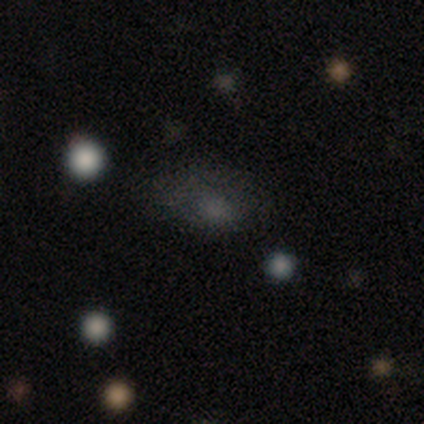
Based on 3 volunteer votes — Smooth or featured: smooth — 67% (featured or disk — 33%)
How rounded: in between — 100%
Merging: minor disturbance — 67% (none — 33%)